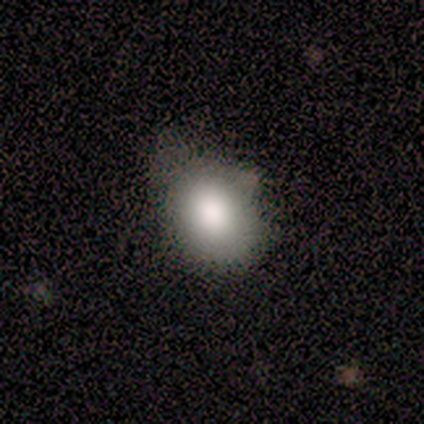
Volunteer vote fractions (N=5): Q: Smooth or featured?
A: smooth (100%)
Q: How rounded?
A: round (60%); runner-up: in between (40%)
Q: Merging?
A: none (60%); runner-up: minor disturbance (40%)